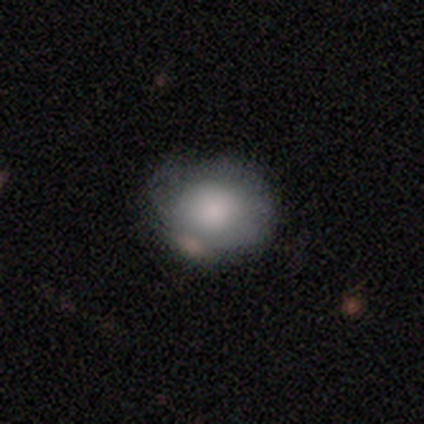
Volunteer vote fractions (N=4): Morphology: type=smooth (100%); roundness=round (50%, tied with in between); merging=none (50%).